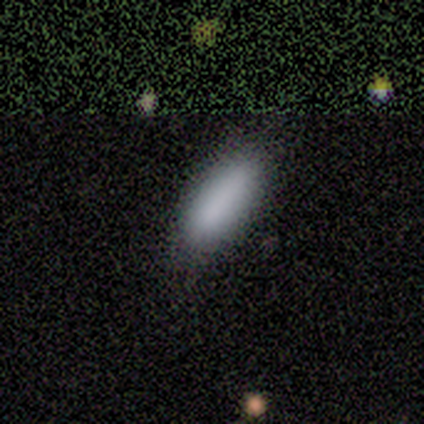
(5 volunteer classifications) This is clearly a smooth galaxy (100%). How rounded: likely in between (60%). Merging: clearly none (80%).